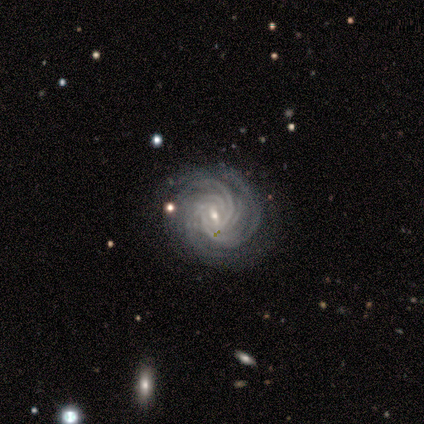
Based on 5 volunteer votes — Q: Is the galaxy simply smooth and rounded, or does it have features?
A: featured or disk — 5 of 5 (100%).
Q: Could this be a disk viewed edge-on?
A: no — 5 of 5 (100%).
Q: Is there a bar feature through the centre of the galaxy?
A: weak — 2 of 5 (40%, tied with no).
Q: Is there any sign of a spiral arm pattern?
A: yes — 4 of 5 (80%).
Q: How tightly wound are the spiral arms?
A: tight — 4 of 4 (100%).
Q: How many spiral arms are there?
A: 3 — 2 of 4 (50%).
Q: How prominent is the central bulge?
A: small — 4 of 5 (80%).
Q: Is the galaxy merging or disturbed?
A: none — 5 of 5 (100%).